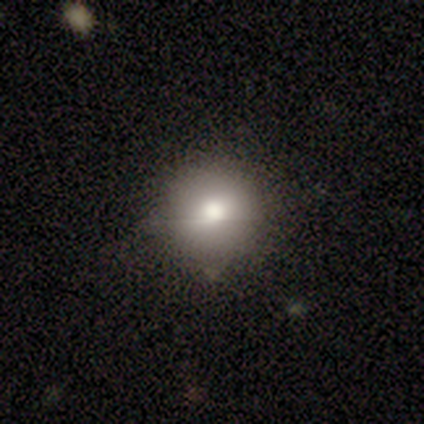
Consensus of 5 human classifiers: A smooth galaxy with no disk features (100%) that is round (100%). Merging: none (80%).